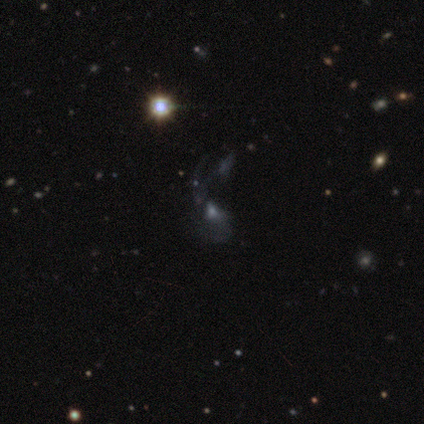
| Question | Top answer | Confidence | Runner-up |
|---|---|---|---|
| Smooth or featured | featured or disk | 80% | star or artifact (20%) |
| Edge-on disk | no | 100% | — |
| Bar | no | 75% | strong (25%) |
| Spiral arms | no | 75% | yes (25%) |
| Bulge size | moderate | 50% | small (25%) |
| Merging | major disturbance | 50% | minor disturbance (25%) |